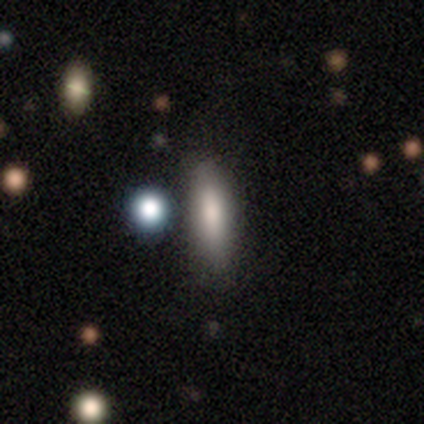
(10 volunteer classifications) Morphology: type=smooth (70%); roundness=cigar-shaped (71%); merging=none (78%).